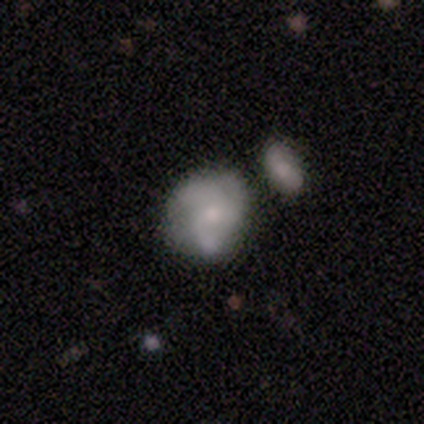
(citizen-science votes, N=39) A smooth galaxy with no disk features (49%) that is round (47%). Merging: none (62%).